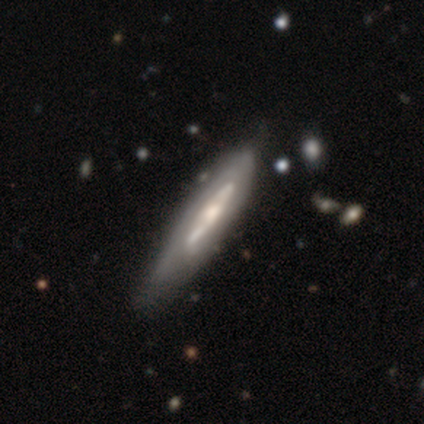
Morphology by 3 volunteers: Smooth or featured?
  - smooth: 33% * (tied)
  - featured or disk: 33% * (tied)
  - star or artifact: 33% * (tied)
How rounded?
  - cigar-shaped: 100% *
  - round: 0%
  - in between: 0%
Merging?
  - minor disturbance: 50% * (tied)
  - merger: 50% * (tied)
  - none: 0%
  - major disturbance: 0%